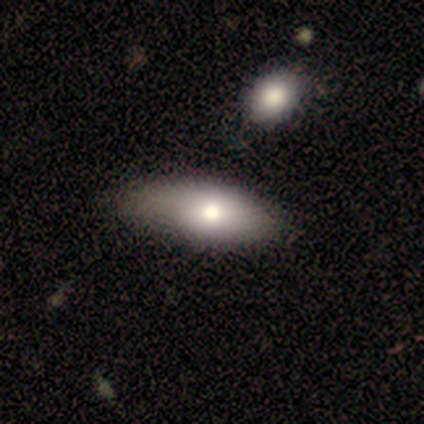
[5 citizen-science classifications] A smooth galaxy with no disk features (80%) that is in between round and cigar-shaped (100%).

Vote fractions:
- Smooth or featured? smooth: 80% / featured or disk: 20% / star or artifact: 0%
- How rounded? in between: 100% / round: 0% / cigar-shaped: 0%
- Merging? none: 40% (tied) / minor disturbance: 40% (tied) / merger: 20% / major disturbance: 0%